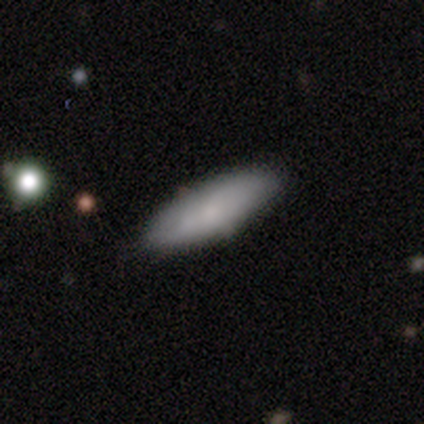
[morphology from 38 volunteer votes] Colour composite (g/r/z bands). It shows a smooth galaxy with no disk features (82%) that is in between round and cigar-shaped (65%). Merging: none (84%).